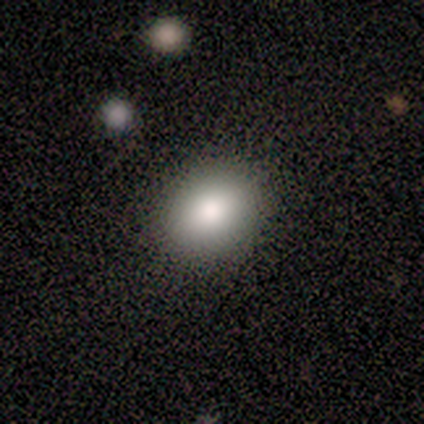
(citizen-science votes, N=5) Smooth or featured? smooth (100%)
How rounded? round (60%)
Merging? none (100%)